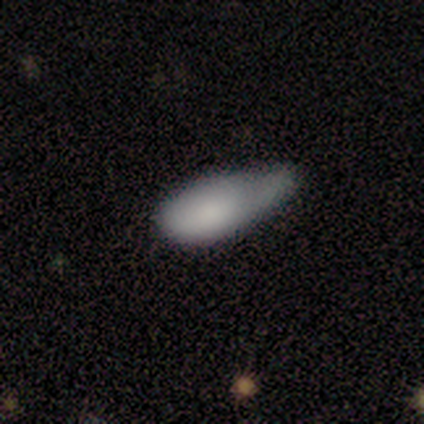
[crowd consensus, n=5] Q: Smooth or featured?
A: smooth (100%)
Q: How rounded?
A: in between (100%)
Q: Merging?
A: none (60%); runner-up: minor disturbance (20%)